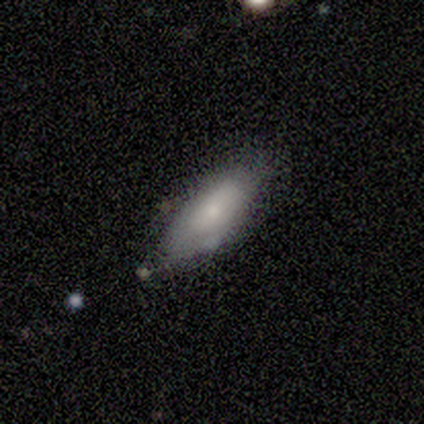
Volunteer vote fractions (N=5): A smooth galaxy with no disk features (100%) that is in between round and cigar-shaped (100%). Merging: none (60%).